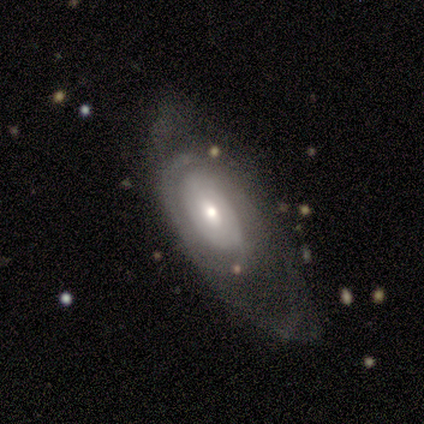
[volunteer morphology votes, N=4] This appears to be a featured or disk galaxy (75%) with no bar (67%), no spiral arms (67%) and a moderate central bulge (100%). Merging: major disturbance (50%).